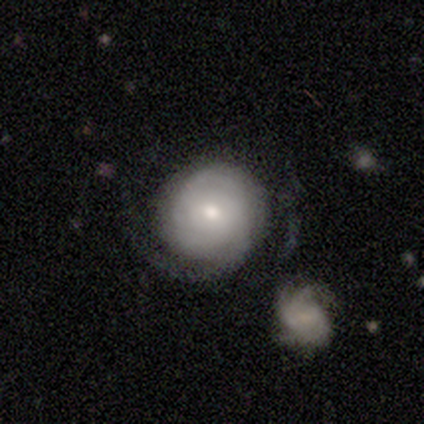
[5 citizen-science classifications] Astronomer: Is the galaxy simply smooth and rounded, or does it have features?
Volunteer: featured or disk — 80%.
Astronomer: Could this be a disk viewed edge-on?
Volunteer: no — 100%.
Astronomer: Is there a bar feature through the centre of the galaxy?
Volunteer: no — 100%.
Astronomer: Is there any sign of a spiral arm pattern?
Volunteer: yes — 75%.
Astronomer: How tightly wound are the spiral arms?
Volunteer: tight — 100%.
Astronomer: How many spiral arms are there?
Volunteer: can't tell — 67%.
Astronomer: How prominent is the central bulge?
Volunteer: moderate — 50%.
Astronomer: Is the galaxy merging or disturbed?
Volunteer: none — 60% (runner-up: merger, 40%).